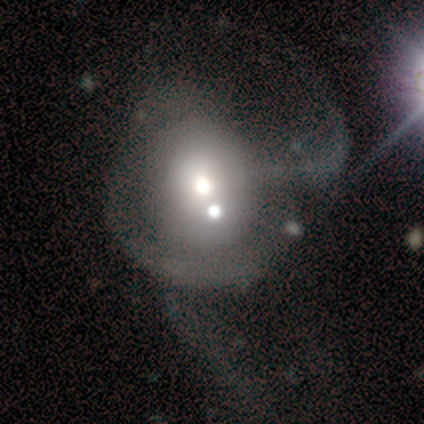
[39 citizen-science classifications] This is marginally a smooth galaxy (44%). How rounded: likely round (76%). Merging: marginally merger (22%).